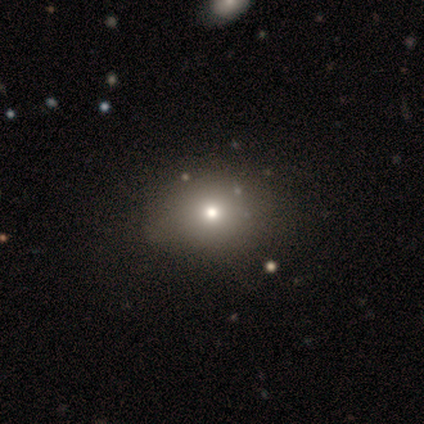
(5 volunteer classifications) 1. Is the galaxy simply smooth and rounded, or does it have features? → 80% smooth, 20% featured or disk, 0% star or artifact.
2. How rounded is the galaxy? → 50% round (tied), 50% in between (tied), 0% cigar-shaped.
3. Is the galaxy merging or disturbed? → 60% none, 40% minor disturbance, 0% major disturbance, 0% merger.